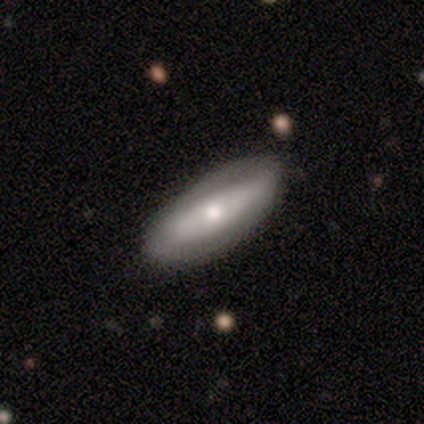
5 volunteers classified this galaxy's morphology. Volunteers were most divided on "smooth or featured": featured or disk: 60%, smooth: 40%, star or artifact: 0%. More confident: edge-on disk — no (100%); merging — none (100%); bar — no (67%); spiral arms — no (67%); bulge size — large (67%).